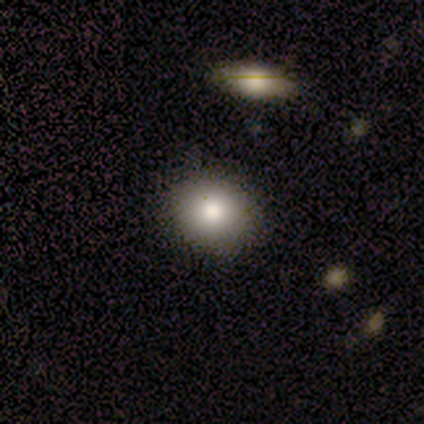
This is likely a smooth galaxy (75%). How rounded: likely in between (67%). Merging: clearly none (100%).